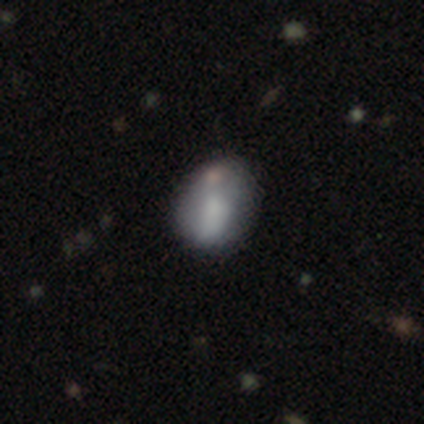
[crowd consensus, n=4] Morphology: type=smooth (50%, tied with featured or disk); roundness=in between (100%); merging=none (75%).